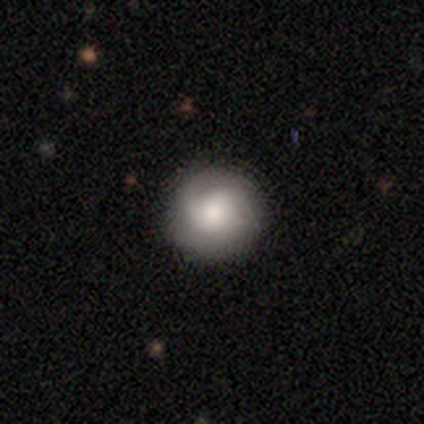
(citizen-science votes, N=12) Overall: smooth (58%; featured or disk 42%). How rounded: round (86%). Merging: none (92%).